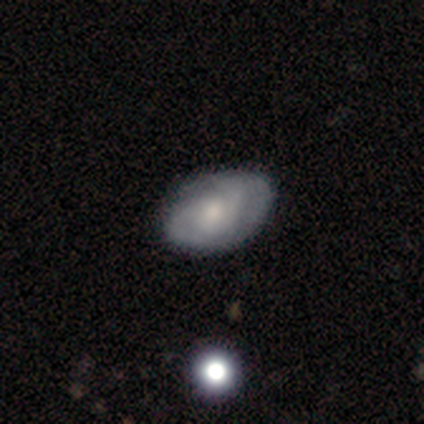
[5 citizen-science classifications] Smooth or featured? 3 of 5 (60%) said smooth. How rounded? 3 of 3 (100%) said in between. Merging? 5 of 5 (100%) said none.